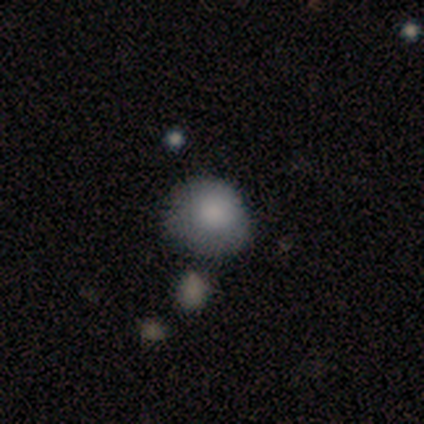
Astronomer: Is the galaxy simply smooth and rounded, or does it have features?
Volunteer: smooth — 80%.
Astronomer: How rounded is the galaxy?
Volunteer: round — 75%.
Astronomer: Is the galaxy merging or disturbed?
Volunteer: none — 80%.